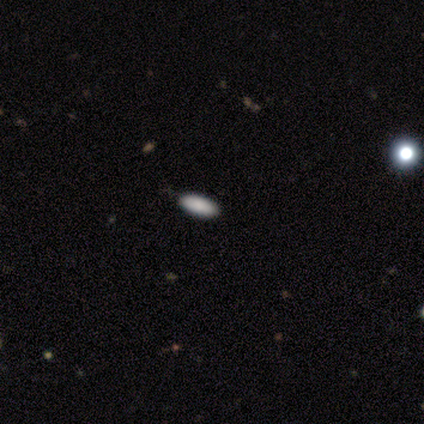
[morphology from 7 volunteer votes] Smooth or featured? 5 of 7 (71%) said smooth. How rounded? 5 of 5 (100%) said in between. Merging? 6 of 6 (100%) said none.